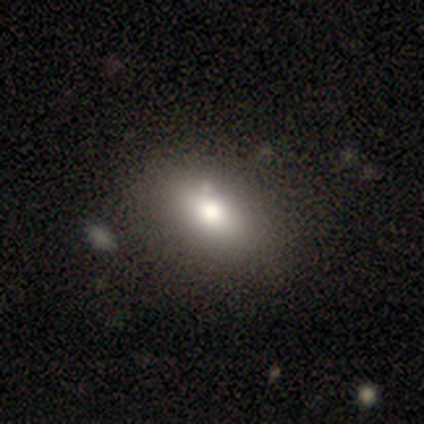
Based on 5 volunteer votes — Overall: smooth (80%). How rounded: in between (75%). Merging: none (75%).